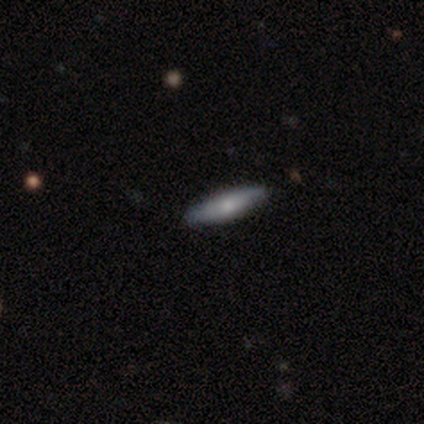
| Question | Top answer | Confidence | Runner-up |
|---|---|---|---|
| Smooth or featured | featured or disk | 75% | smooth (25%) |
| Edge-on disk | yes | 100% | — |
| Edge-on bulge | rounded | 67% | none (33%) |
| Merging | none | 75% | minor disturbance (25%) |